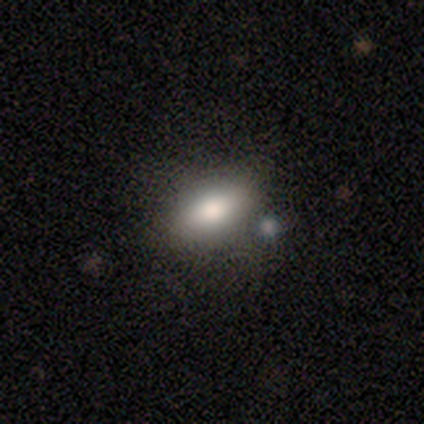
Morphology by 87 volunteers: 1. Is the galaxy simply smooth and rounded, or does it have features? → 74% smooth, 18% featured or disk, 8% star or artifact.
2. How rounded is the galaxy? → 89% in between, 6% cigar-shaped, 5% round.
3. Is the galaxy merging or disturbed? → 71% none, 16% minor disturbance, 6% major disturbance, 6% merger.